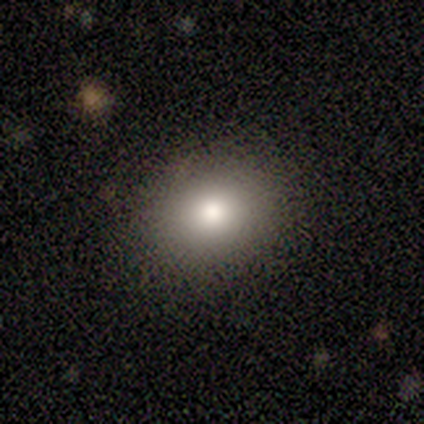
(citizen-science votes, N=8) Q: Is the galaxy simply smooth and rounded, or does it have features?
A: smooth — 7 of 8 (88%).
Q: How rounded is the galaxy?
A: round — 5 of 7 (71%).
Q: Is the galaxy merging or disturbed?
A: none — 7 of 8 (88%).